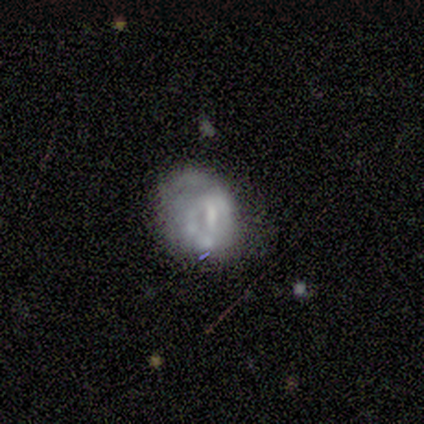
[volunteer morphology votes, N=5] featured or disk 100%, smooth 0%, star or artifact 0%. Down the decision tree: edge-on disk — no (100%); bar — weak (40%, tied with no); spiral arms — no (80%); bulge size — small (40%, tied with none); merging — none (40%, tied with minor disturbance).